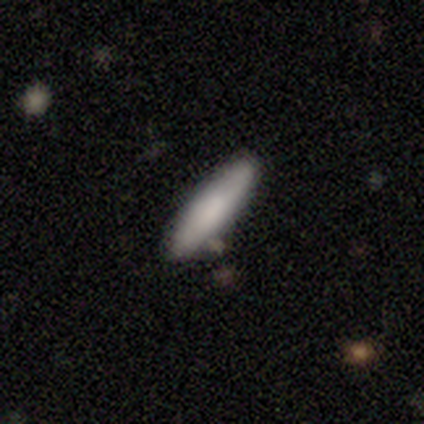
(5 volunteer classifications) Smooth or featured? smooth (80%)
How rounded? in between (50%, tied with cigar-shaped)
Merging? none (80%)